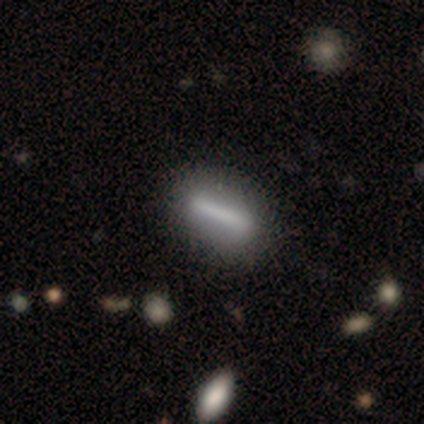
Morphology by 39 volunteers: Smooth or featured: featured or disk — 51% (smooth — 44%)
Edge-on disk: no — 75% (yes — 25%)
Bar: strong — 73% (weak — 13%)
Spiral arms: no — 93% (yes — 7%)
Bulge size: none — 80% (dominant — 7%)
Merging: none — 65% (major disturbance — 8%)